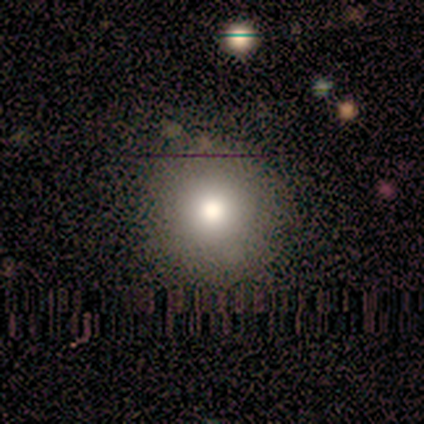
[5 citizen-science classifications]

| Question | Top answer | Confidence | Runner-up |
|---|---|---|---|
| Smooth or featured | smooth | 80% | star or artifact (20%) |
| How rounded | round | 75% | in between (25%) |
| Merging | none | 100% | — |